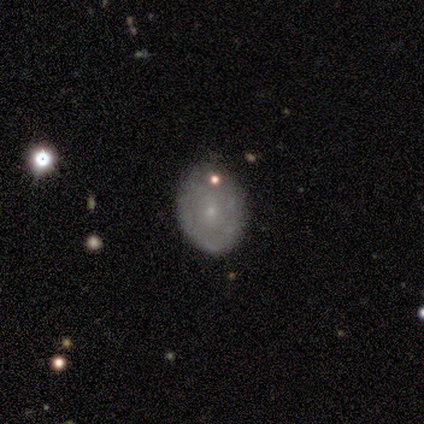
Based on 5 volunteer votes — Smooth or featured: featured or disk — 60% (smooth — 40%)
Edge-on disk: no — 100%
Bar: no — 100%
Spiral arms: no — 67% (yes — 33%)
Bulge size: small — 100%
Merging: none — 80% (minor disturbance — 20%)